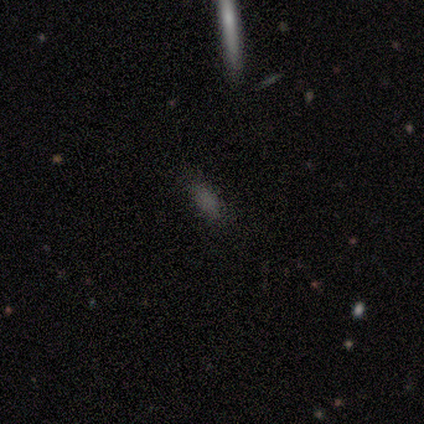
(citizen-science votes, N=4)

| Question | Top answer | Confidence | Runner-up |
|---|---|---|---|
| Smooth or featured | smooth | 50% | featured or disk (25%) |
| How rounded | in between | 100% | — |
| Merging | none | 67% | minor disturbance (33%) |